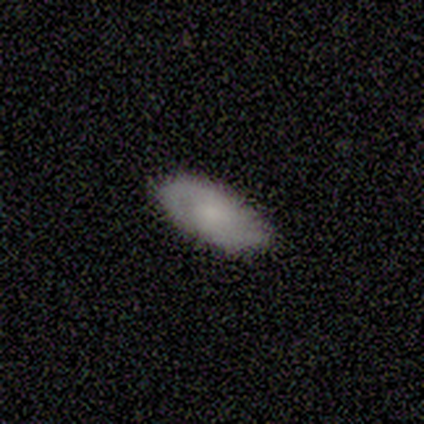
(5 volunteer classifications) This is likely a featured or disk galaxy (60%). It is clearly not viewed edge-on (100%). Bar: clearly no (100%). Spiral arm pattern: clearly yes (100%). Spiral arm count: likely 2 (67%). Spiral winding: marginally tight (33%, tied with medium and loose). Central bulge: marginally moderate (33%, tied with small and none). Merging: clearly none (100%).